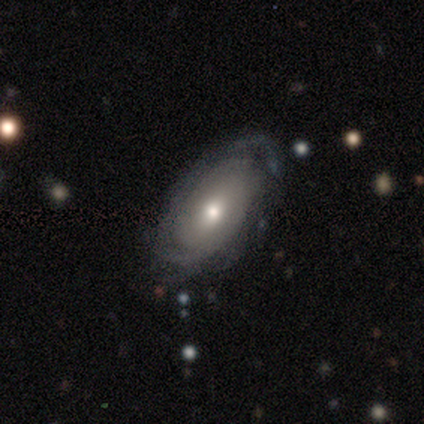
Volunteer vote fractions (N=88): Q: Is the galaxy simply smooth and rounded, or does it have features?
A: featured or disk — 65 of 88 (74%).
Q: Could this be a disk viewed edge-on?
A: no — 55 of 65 (85%).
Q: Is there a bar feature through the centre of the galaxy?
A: no — 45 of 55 (82%).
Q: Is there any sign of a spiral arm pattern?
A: yes — 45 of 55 (82%).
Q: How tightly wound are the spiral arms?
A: tight — 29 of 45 (64%).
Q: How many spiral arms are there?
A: can't tell — 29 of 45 (64%).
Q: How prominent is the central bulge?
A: moderate — 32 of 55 (58%).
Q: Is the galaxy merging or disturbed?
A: none — 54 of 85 (64%).